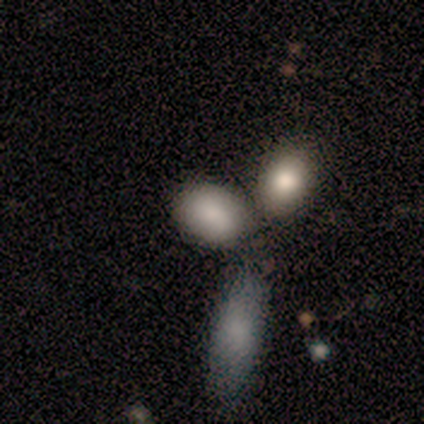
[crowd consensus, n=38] Morphology: type=smooth (76%); roundness=in between (72%); merging=none (44%).